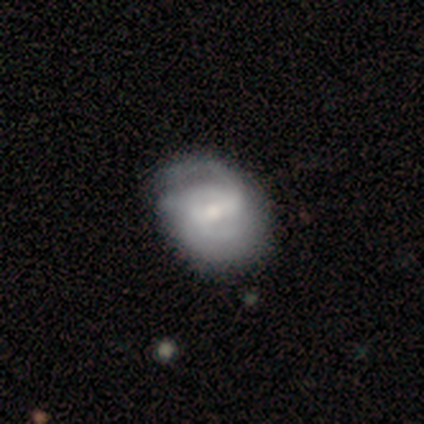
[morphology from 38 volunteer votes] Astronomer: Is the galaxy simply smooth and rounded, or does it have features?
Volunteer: featured or disk — 74%.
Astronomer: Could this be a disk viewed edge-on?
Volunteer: no — 89%.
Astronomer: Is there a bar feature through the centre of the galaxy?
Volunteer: weak — 48% (runner-up: strong, 28%).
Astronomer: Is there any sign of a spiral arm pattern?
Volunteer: yes — 96%.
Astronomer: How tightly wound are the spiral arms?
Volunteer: medium — 54% (runner-up: tight, 42%).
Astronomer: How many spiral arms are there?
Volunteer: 2 — 54%.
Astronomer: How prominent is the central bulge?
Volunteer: moderate — 44% (runner-up: small, 40%).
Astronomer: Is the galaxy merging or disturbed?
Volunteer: none — 55% (runner-up: minor disturbance, 32%).